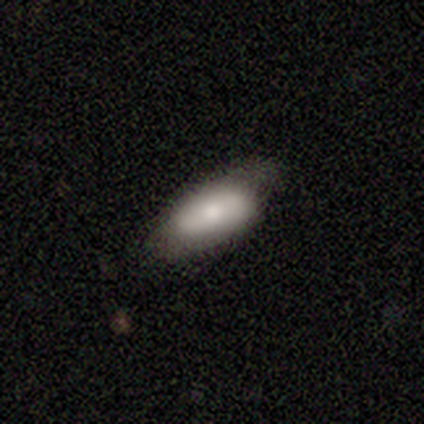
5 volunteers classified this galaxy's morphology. smooth_or_featured: smooth (p=1.00)
how_rounded: in between (p=0.80) [alt: cigar-shaped p=0.20]
merging: none (p=1.00)